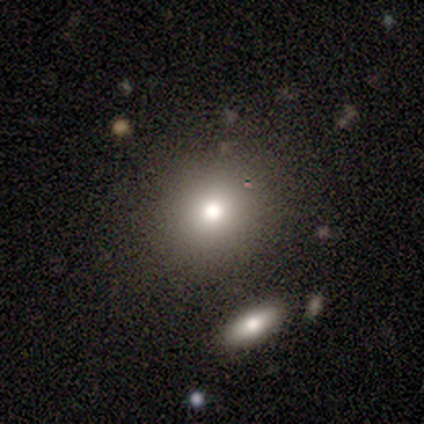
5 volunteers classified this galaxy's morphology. smooth-or-featured: smooth: 100% | featured or disk: 0% | star or artifact: 0%
  how-rounded: round: 100% | in between: 0% | cigar-shaped: 0%
  merging: none: 100% | minor disturbance: 0% | major disturbance: 0% | merger: 0%